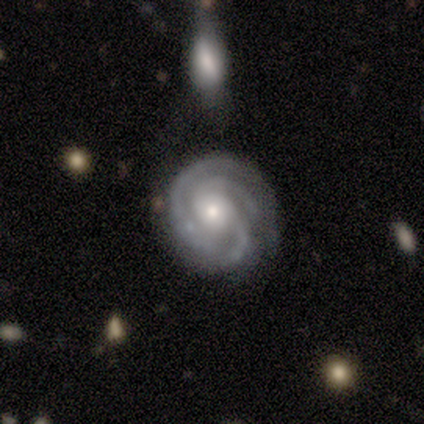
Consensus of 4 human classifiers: Smooth or featured?
  - featured or disk: 100% *
  - smooth: 0%
  - star or artifact: 0%
Edge-on disk?
  - no: 100% *
  - yes: 0%
Bar?
  - no: 75% *
  - weak: 25%
  - strong: 0%
Spiral arms?
  - yes: 75% *
  - no: 25%
Spiral winding?
  - tight: 67% *
  - medium: 33%
  - loose: 0%
Spiral arm count?
  - 3: 100% *
  - 1: 0%
  - 2: 0%
  - 4: 0%
  - more than 4: 0%
  - can't tell: 0%
Bulge size?
  - small: 75% *
  - moderate: 25%
  - dominant: 0%
  - large: 0%
  - none: 0%
Merging?
  - none: 50% *
  - major disturbance: 25%
  - merger: 25%
  - minor disturbance: 0%